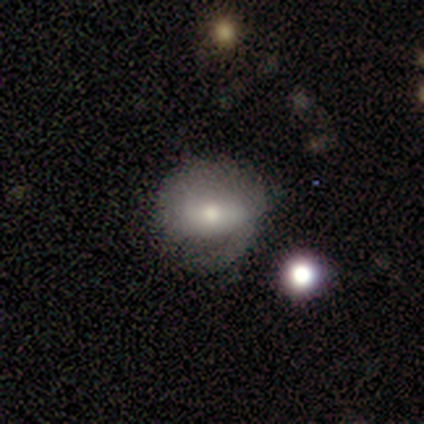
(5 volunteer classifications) Morphology: type=smooth (60%); roundness=round (67%); merging=none (67%).